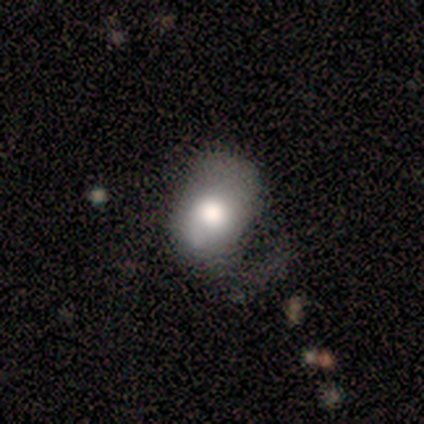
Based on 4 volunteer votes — smooth_or_featured: smooth (p=0.75) [alt: featured or disk p=0.25]
how_rounded: in between (p=1.00)
merging: major disturbance (p=0.50) [alt: minor disturbance p=0.25]